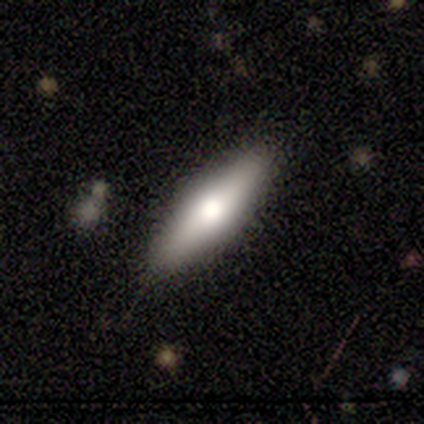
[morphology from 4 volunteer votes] Overall: smooth (50%, tied with featured or disk). How rounded: cigar-shaped (100%). Merging: none (100%).